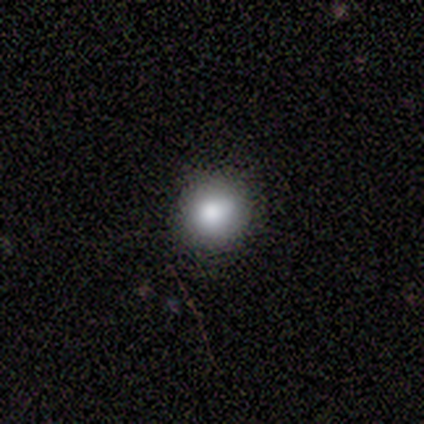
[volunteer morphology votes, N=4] smooth-or-featured: smooth: 50% | featured or disk: 25% | star or artifact: 25%
  how-rounded: round: 100% | in between: 0% | cigar-shaped: 0%
  merging: none: 100% | minor disturbance: 0% | major disturbance: 0% | merger: 0%